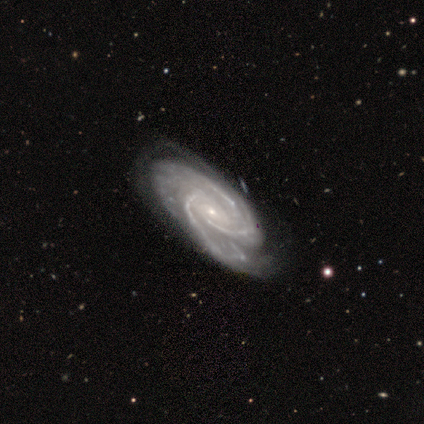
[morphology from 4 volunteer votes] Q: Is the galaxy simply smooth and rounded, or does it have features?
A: featured or disk — 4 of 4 (100%).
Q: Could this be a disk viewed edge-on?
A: no — 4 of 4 (100%).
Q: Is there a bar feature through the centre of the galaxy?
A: no — 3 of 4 (75%).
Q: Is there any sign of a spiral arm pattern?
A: yes — 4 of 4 (100%).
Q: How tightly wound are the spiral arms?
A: tight — 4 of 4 (100%).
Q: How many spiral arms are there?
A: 3 — 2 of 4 (50%).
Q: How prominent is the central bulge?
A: small — 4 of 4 (100%).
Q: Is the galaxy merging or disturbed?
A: none — 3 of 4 (75%).